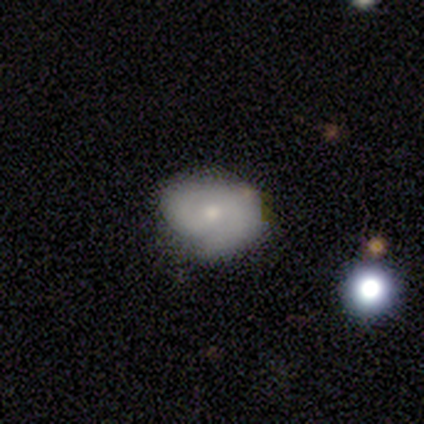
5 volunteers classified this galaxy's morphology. A smooth galaxy with no disk features (60%) that is in between round and cigar-shaped (100%).

Vote fractions:
- Smooth or featured? smooth: 60% / featured or disk: 40% / star or artifact: 0%
- How rounded? in between: 100% / round: 0% / cigar-shaped: 0%
- Merging? none: 80% / minor disturbance: 20% / major disturbance: 0% / merger: 0%